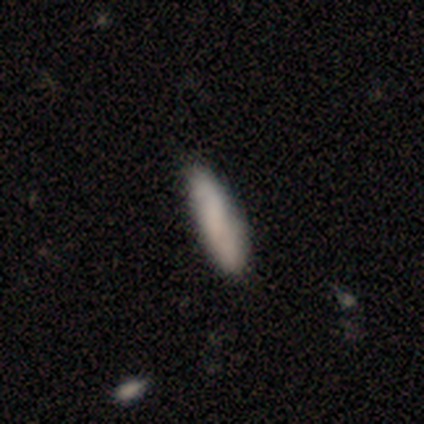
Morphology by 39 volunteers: Q: Smooth or featured?
A: smooth (82%); runner-up: featured or disk (15%)
Q: How rounded?
A: cigar-shaped (81%); runner-up: in between (19%)
Q: Merging?
A: none (53%); runner-up: minor disturbance (11%)